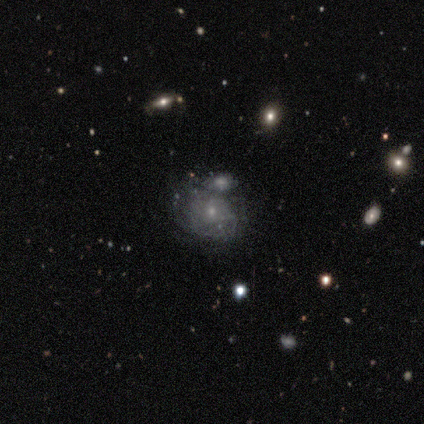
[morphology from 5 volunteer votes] Volunteers were most divided on "bar": no: 60%, weak: 40%, strong: 0%. More confident: smooth or featured — featured or disk (100%); edge-on disk — no (100%); bulge size — small (80%); spiral arms — no (60%); merging — none (60%).